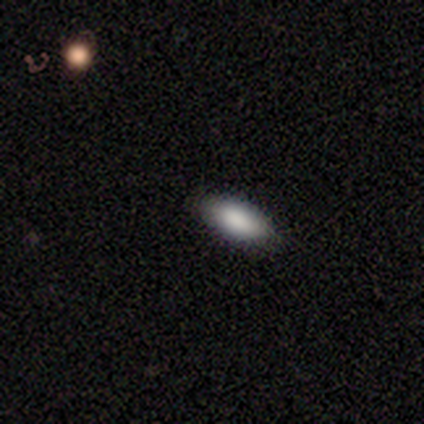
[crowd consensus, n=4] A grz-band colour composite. It shows a smooth galaxy with no disk features (100%) that is in between round and cigar-shaped (100%). Merging: none (100%).